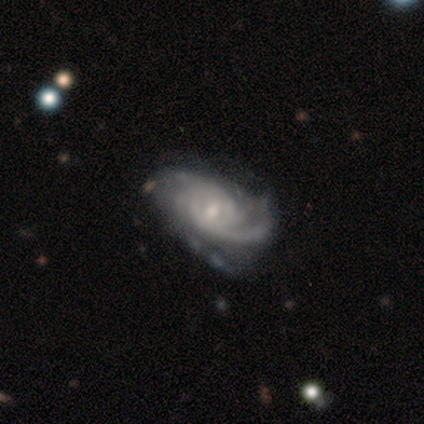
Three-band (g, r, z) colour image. It shows a featured or disk galaxy (100%) with a weak bar (60%), 2 (60%) tight (80%) spiral arms (100%) and a small central bulge (60%). Merging: none (40%, tied with minor disturbance).